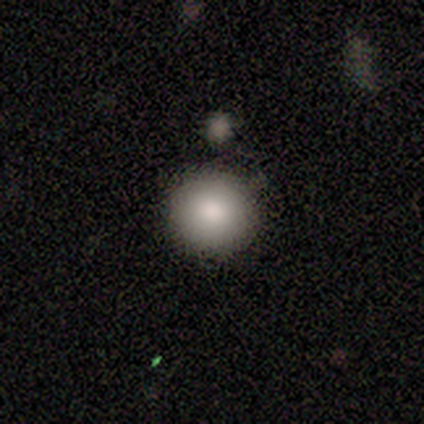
smooth-or-featured: smooth: 100% | featured or disk: 0% | star or artifact: 0%
  how-rounded: round: 75% | in between: 25% | cigar-shaped: 0%
  merging: none: 75% | merger: 25% | minor disturbance: 0% | major disturbance: 0%